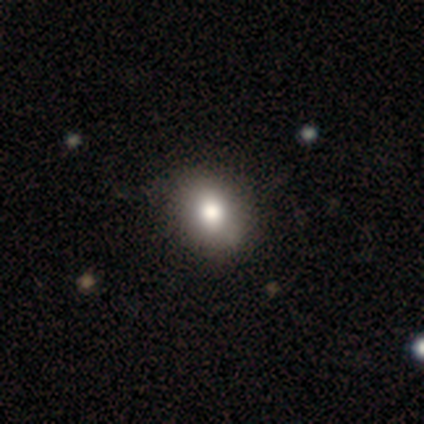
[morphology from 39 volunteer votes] smooth 74%, featured or disk 23%, star or artifact 3%. Down the decision tree: how rounded — in between (55%); merging — none (68%).